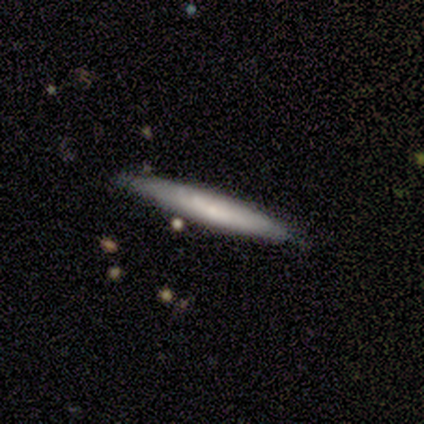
Smooth or featured? 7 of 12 (58%) said smooth. How rounded? 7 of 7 (100%) said cigar-shaped. Merging? 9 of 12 (75%) said none.